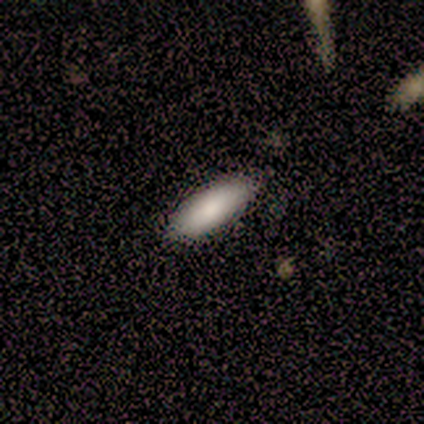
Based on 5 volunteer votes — This is clearly a smooth galaxy (100%). How rounded: clearly in between (80%). Merging: clearly none (100%).